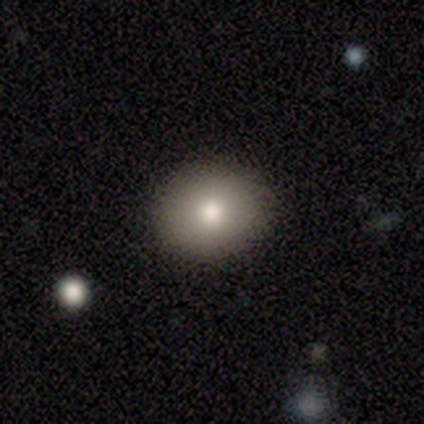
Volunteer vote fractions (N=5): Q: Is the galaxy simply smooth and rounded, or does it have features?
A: smooth — 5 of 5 (100%).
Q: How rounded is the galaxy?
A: round — 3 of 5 (60%).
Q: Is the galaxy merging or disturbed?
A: none — 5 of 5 (100%).